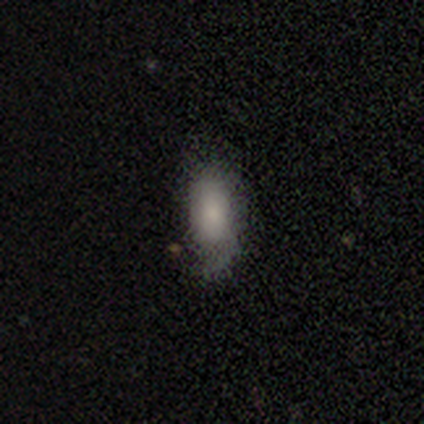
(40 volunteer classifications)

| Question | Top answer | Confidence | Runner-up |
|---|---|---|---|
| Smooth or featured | smooth | 62% | star or artifact (20%) |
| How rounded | in between | 80% | cigar-shaped (20%) |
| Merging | none | 56% | minor disturbance (31%) |